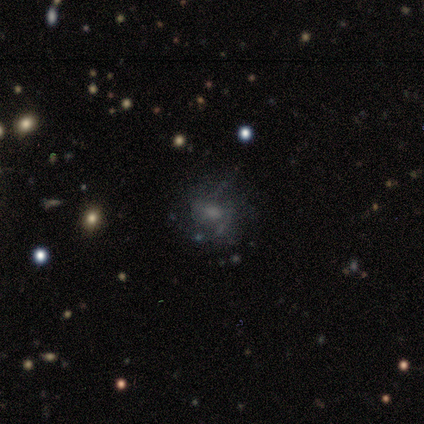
Q: Smooth or featured?
A: featured or disk (60%); runner-up: smooth (40%)
Q: Edge-on disk?
A: no (100%)
Q: Bar?
A: no (67%); runner-up: weak (33%)
Q: Spiral arms?
A: yes (100%)
Q: Spiral winding?
A: medium (100%)
Q: Spiral arm count?
A: can't tell (67%); runner-up: 3 (33%)
Q: Bulge size?
A: moderate (67%); runner-up: large (33%)
Q: Merging?
A: none (60%); runner-up: minor disturbance (20%)